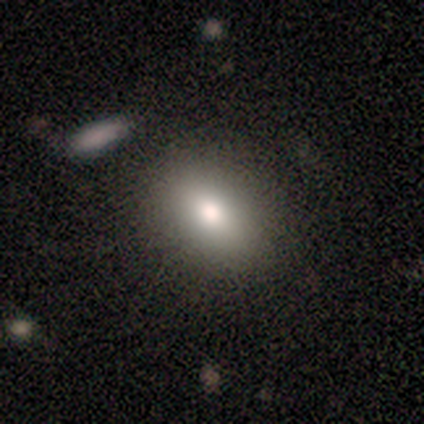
Volunteers were most divided on "merging": none: 60%, minor disturbance: 20%, major disturbance: 20%, merger: 0%. More confident: how rounded — in between (100%); smooth or featured — smooth (80%).